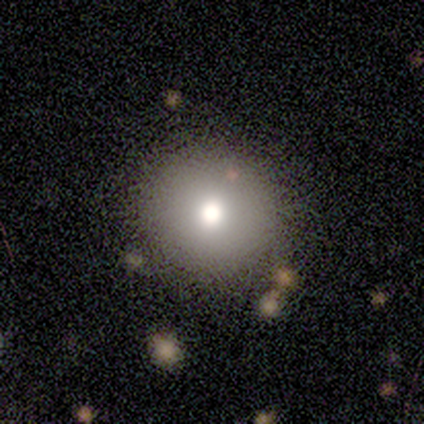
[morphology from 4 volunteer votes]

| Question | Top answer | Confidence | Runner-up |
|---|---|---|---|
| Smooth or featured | smooth | 50% | tied: featured or disk (50%) |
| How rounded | round | 100% | — |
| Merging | none | 50% | minor disturbance (25%) |